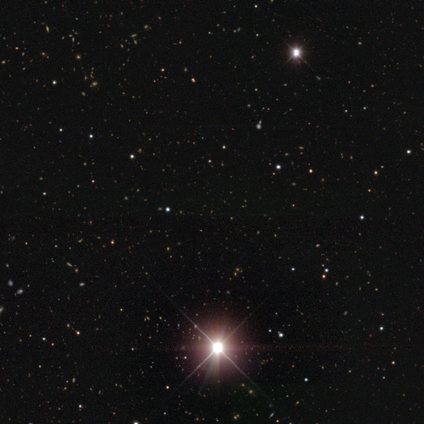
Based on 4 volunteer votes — Overall: star or artifact (100%).